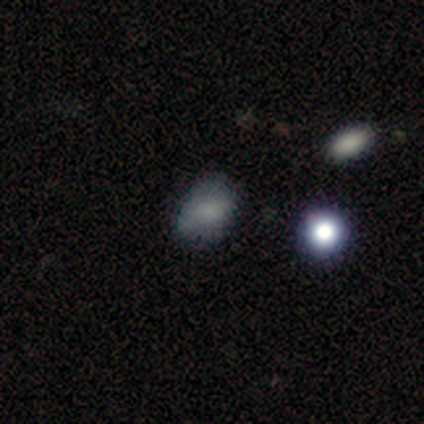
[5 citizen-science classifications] Q: Smooth or featured?
A: smooth (60%); runner-up: featured or disk (20%)
Q: How rounded?
A: round (67%); runner-up: in between (33%)
Q: Merging?
A: none (50%); tied with: minor disturbance (50%)